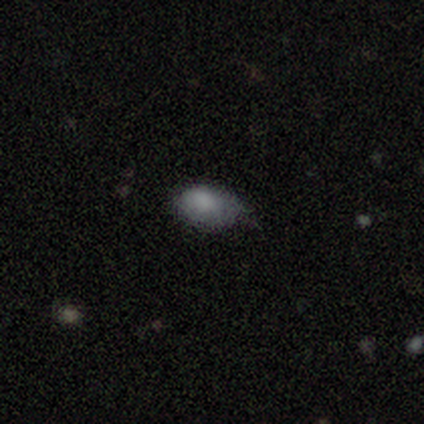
smooth-or-featured: smooth: 80% | featured or disk: 17% | star or artifact: 2%
  how-rounded: in between: 91% | round: 9% | cigar-shaped: 0%
  merging: minor disturbance: 48% | none: 45% | major disturbance: 8% | merger: 0%